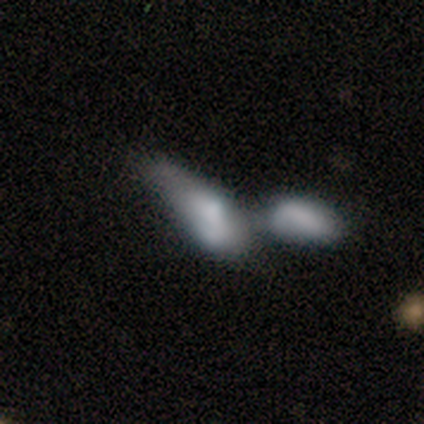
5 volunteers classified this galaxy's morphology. smooth-or-featured: smooth: 60% | featured or disk: 40% | star or artifact: 0%
  how-rounded: in between: 100% | round: 0% | cigar-shaped: 0%
  merging: merger: 80% | none: 20% | minor disturbance: 0% | major disturbance: 0%